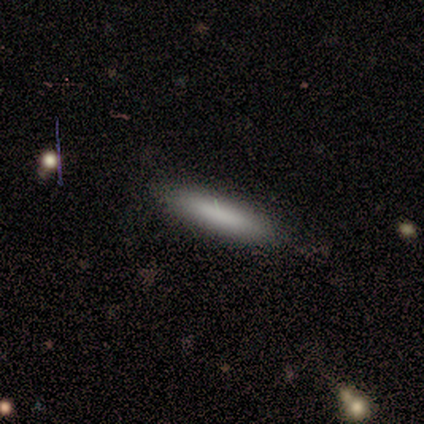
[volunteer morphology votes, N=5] A smooth galaxy with no disk features (80%) that is cigar-shaped (100%).

Vote fractions:
- Smooth or featured? smooth: 80% / featured or disk: 20% / star or artifact: 0%
- How rounded? cigar-shaped: 100% / round: 0% / in between: 0%
- Merging? none: 100% / minor disturbance: 0% / major disturbance: 0% / merger: 0%